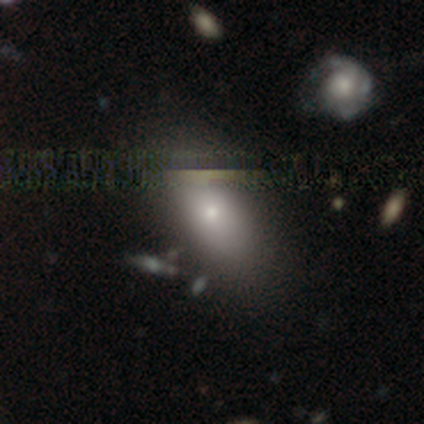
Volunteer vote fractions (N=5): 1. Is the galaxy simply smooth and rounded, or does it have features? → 40% smooth (tied), 40% featured or disk (tied), 20% star or artifact.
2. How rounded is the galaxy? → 100% in between, 0% round, 0% cigar-shaped.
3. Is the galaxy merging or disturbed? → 50% none, 25% minor disturbance, 25% major disturbance, 0% merger.